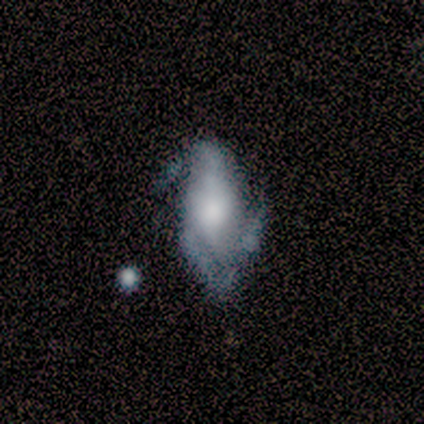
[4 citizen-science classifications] Overall: featured or disk (100%). Edge-on disk: no (100%). Bar: no (100%). Spiral arms: yes (100%). Spiral arm count: 3 (75%). Spiral winding: tight (50%, tied with medium). Bulge size: moderate (50%, tied with none). Merging: minor disturbance (75%).